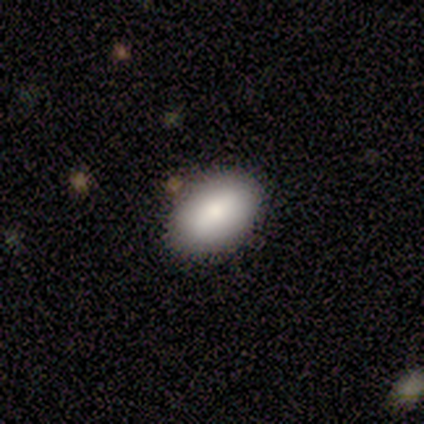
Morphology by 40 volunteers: A smooth galaxy with no disk features (90%) that is in between round and cigar-shaped (92%).

Vote fractions:
- Smooth or featured? smooth: 90% / featured or disk: 8% / star or artifact: 2%
- How rounded? in between: 92% / round: 6% / cigar-shaped: 3%
- Merging? none: 44% / merger: 10% / minor disturbance: 5% / major disturbance: 0%